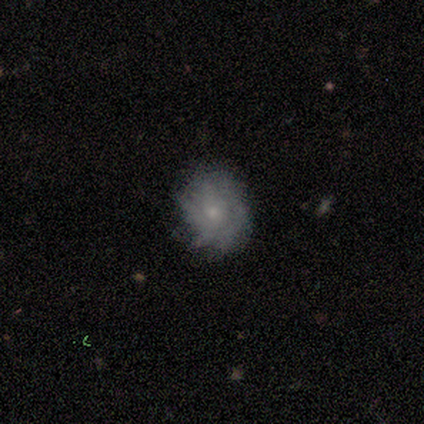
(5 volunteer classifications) smooth-or-featured: smooth: 40% (tied) | featured or disk: 40% (tied) | star or artifact: 20%
  how-rounded: in between: 100% | round: 0% | cigar-shaped: 0%
  merging: none: 75% | minor disturbance: 25% | major disturbance: 0% | merger: 0%